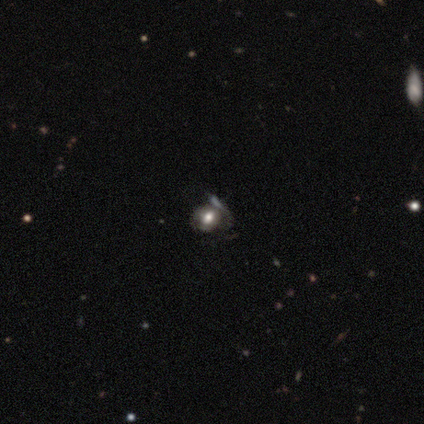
smooth-or-featured: featured or disk: 60% | smooth: 20% | star or artifact: 20%
  disk-edge-on: no: 100% | yes: 0%
    bar: no: 100% | strong: 0% | weak: 0%
    has-spiral-arms: no: 67% | yes: 33%
    bulge-size: dominant: 33% (tied) | large: 33% (tied) | moderate: 33% (tied) | small: 0% | none: 0%
  merging: none: 50% | minor disturbance: 25% | merger: 25% | major disturbance: 0%